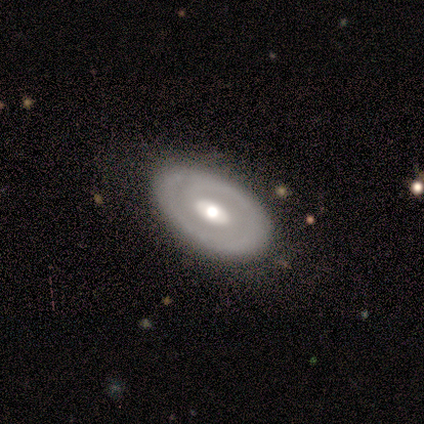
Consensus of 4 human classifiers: smooth_or_featured: featured or disk (p=0.75) [alt: smooth p=0.25]
disk_edge_on: no (p=1.00)
bar: no (p=0.67) [alt: weak p=0.33]
has_spiral_arms: no (p=0.67) [alt: yes p=0.33]
bulge_size: moderate (p=0.67) [alt: large p=0.33]
merging: none (p=1.00)